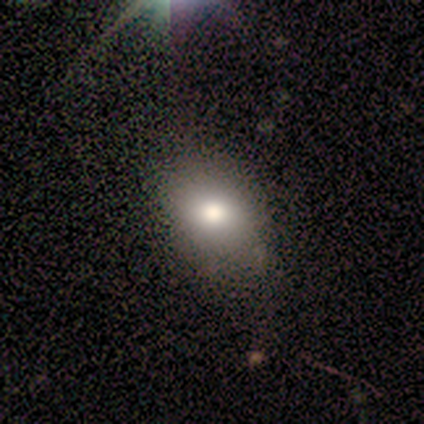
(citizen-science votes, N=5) Q: Smooth or featured?
A: smooth (100%)
Q: How rounded?
A: in between (60%); runner-up: round (40%)
Q: Merging?
A: none (60%); runner-up: minor disturbance (40%)